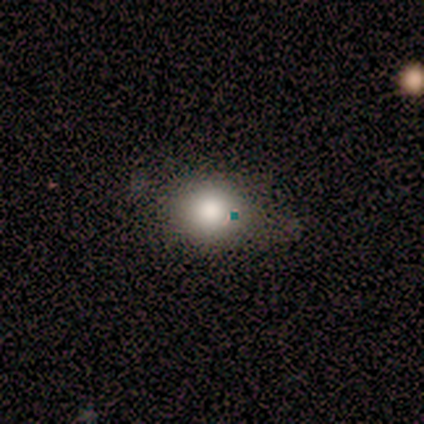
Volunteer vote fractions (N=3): smooth 33% (tied), featured or disk 33% (tied), star or artifact 33% (tied). Down the decision tree: how rounded — round (100%); merging — none (50%, tied with minor disturbance).